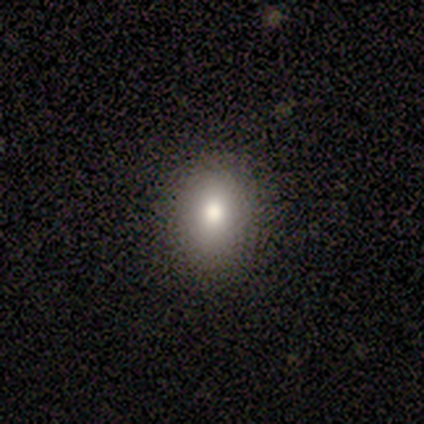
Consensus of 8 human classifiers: Overall: smooth (100%). How rounded: round (50%, tied with in between). Merging: none (100%).